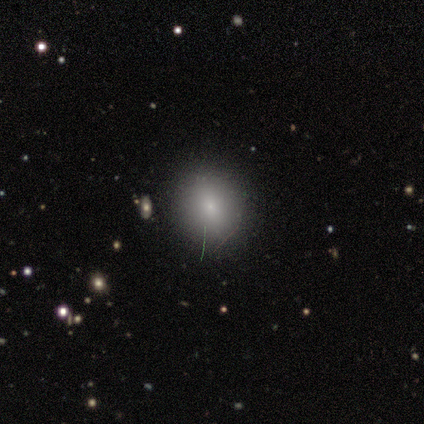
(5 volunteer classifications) Overall: smooth (80%). How rounded: round (75%). Merging: none (100%).